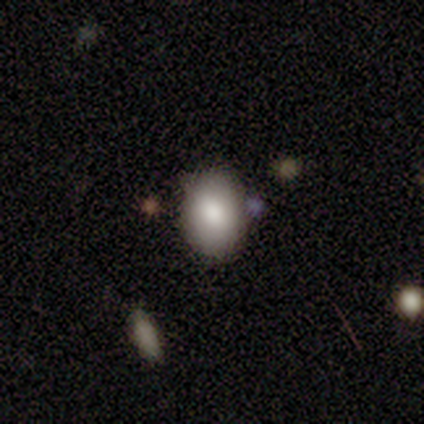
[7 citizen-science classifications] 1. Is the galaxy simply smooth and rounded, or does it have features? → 86% smooth, 14% featured or disk, 0% star or artifact.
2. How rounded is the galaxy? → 67% in between, 33% round, 0% cigar-shaped.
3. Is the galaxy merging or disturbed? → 100% none, 0% minor disturbance, 0% major disturbance, 0% merger.